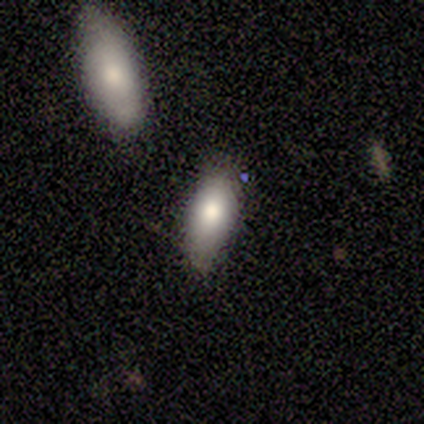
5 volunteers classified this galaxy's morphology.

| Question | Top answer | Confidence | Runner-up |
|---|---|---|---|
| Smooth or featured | smooth | 100% | — |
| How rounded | in between | 60% | cigar-shaped (40%) |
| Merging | major disturbance | 40% | none (20%) |